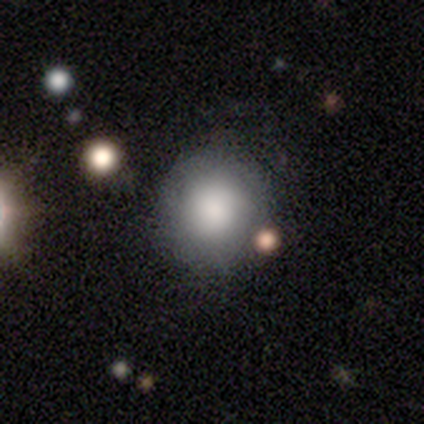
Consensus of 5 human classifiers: Smooth or featured?
  - smooth: 80% *
  - featured or disk: 20%
  - star or artifact: 0%
How rounded?
  - round: 100% *
  - in between: 0%
  - cigar-shaped: 0%
Merging?
  - none: 100% *
  - minor disturbance: 0%
  - major disturbance: 0%
  - merger: 0%